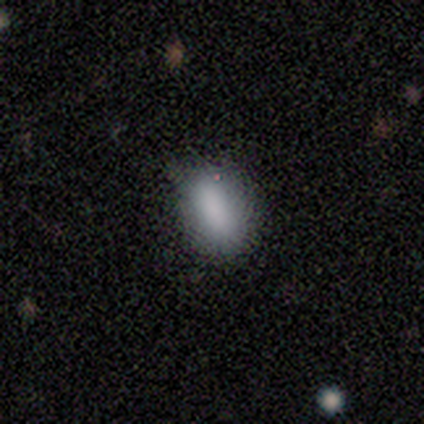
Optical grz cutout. It shows a smooth galaxy with no disk features (100%) that is in between round and cigar-shaped (100%). Merging: none (100%).